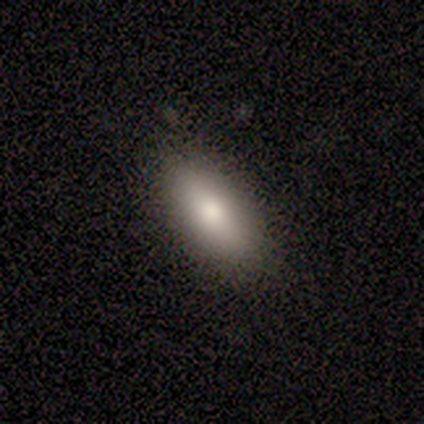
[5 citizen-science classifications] Volunteers were most divided on "smooth or featured": smooth: 80%, featured or disk: 20%, star or artifact: 0%. More confident: how rounded — in between (100%); merging — none (100%).